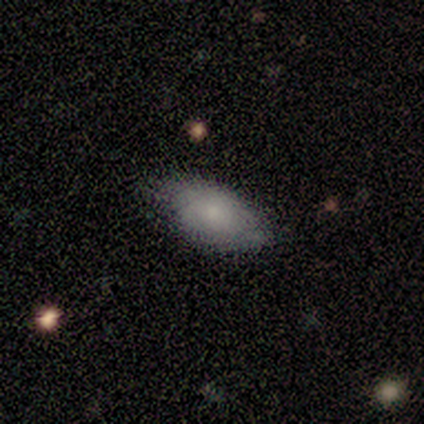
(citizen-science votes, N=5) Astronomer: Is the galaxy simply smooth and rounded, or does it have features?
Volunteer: smooth — 80%.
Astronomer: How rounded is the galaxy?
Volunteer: in between — 100%.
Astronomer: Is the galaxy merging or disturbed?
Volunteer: none — 80%.